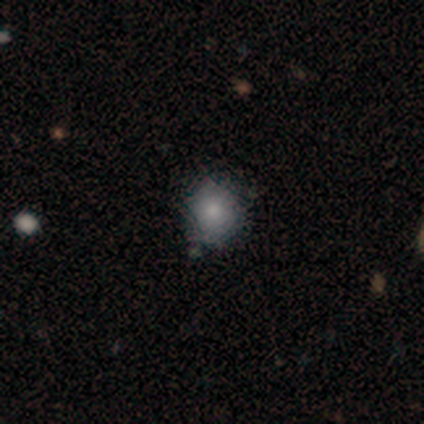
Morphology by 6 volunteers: type=smooth (100%); roundness=round (100%); merging=none (83%).